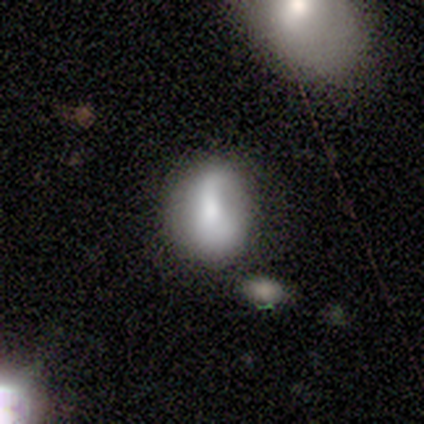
smooth 80%, featured or disk 20%, star or artifact 0%. Down the decision tree: how rounded — round (50%, tied with in between); merging — none (60%).